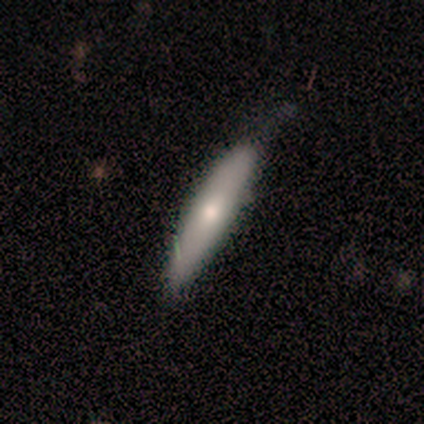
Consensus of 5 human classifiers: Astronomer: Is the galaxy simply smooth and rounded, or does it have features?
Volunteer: smooth — 60%.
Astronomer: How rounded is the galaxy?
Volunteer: cigar-shaped — 100%.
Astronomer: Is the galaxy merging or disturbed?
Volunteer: none — 75%.